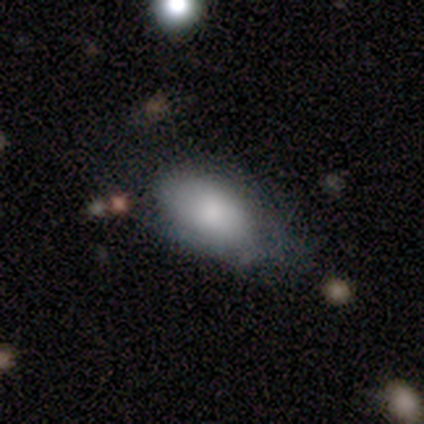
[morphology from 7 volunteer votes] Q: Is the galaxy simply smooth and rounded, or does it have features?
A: smooth — 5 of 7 (71%).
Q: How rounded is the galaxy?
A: in between — 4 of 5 (80%).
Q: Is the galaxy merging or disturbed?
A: minor disturbance — 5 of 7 (71%).